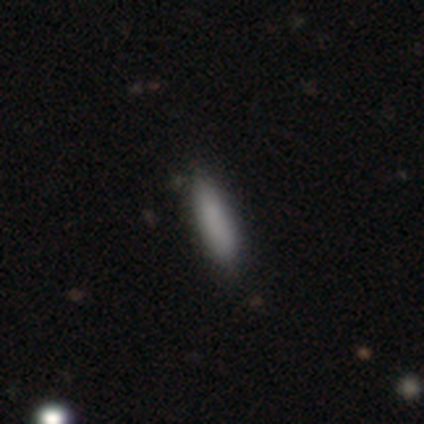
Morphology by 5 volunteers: Volunteers were most divided on "how rounded": in between: 75%, cigar-shaped: 25%, round: 0%. More confident: merging — none (100%); smooth or featured — smooth (80%).